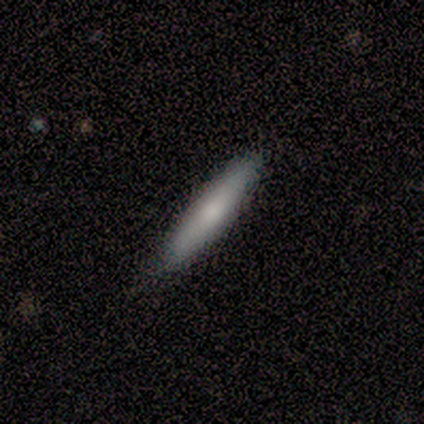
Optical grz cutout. It shows a smooth galaxy with no disk features (79%) that is cigar-shaped (80%). Merging: none (74%).